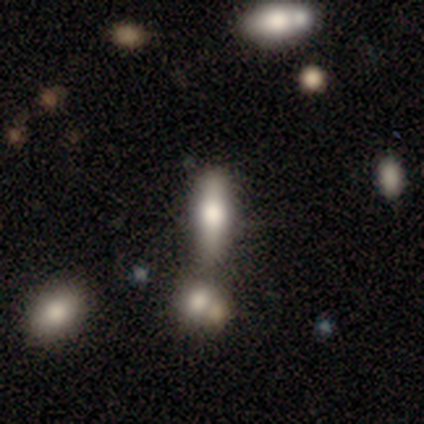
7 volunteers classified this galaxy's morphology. Smooth or featured? 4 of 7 (57%) said smooth. How rounded? 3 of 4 (75%) said cigar-shaped. Merging? 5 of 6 (83%) said none.